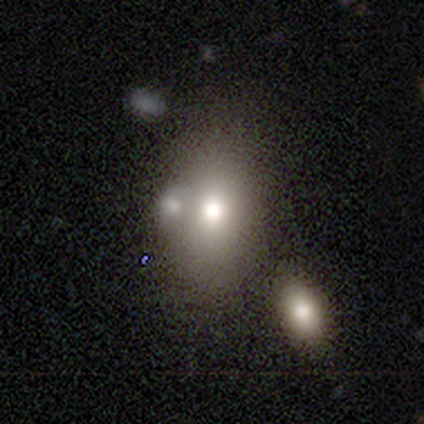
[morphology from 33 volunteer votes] Q: Smooth or featured?
A: smooth (67%); runner-up: featured or disk (18%)
Q: How rounded?
A: in between (73%); runner-up: round (27%)
Q: Merging?
A: merger (54%)